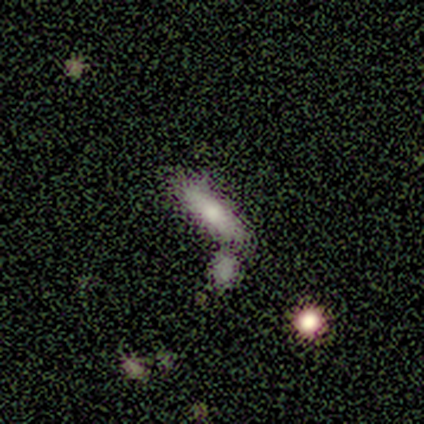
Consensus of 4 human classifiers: Smooth or featured? 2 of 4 (50%, tied with star or artifact) said smooth. How rounded? 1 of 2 (50%, tied with cigar-shaped) said in between. Merging? 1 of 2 (50%, tied with merger) said none.